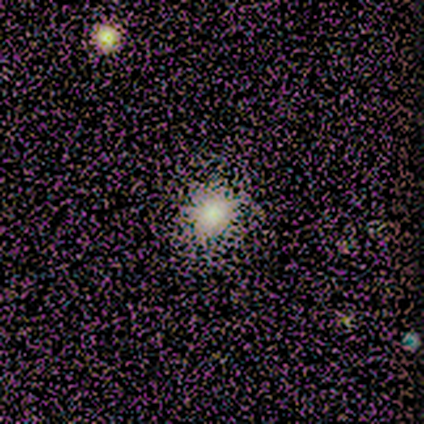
Smooth or featured?
  - star or artifact: 67% *
  - smooth: 33%
  - featured or disk: 0%